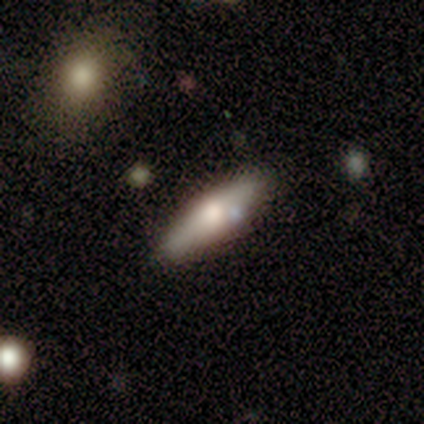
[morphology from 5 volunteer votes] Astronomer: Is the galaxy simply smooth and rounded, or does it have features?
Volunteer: smooth — 80%.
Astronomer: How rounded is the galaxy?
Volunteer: in between — 75%.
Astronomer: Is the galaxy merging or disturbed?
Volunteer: none — 60% (runner-up: minor disturbance, 40%).